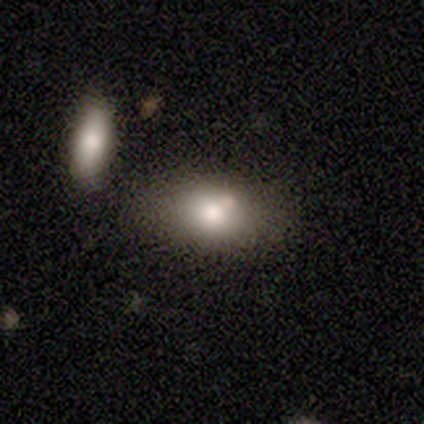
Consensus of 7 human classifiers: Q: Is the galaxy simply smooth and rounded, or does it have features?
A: smooth — 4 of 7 (57%).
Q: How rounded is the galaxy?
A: in between — 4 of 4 (100%).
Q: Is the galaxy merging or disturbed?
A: none — 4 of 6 (67%).